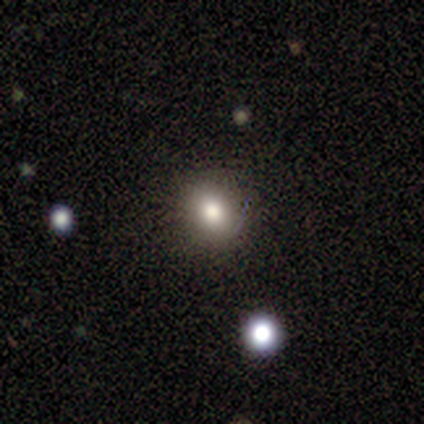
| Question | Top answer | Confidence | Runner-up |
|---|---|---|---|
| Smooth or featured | smooth | 69% | star or artifact (23%) |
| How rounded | round | 78% | in between (22%) |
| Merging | none | 80% | minor disturbance (10%) |